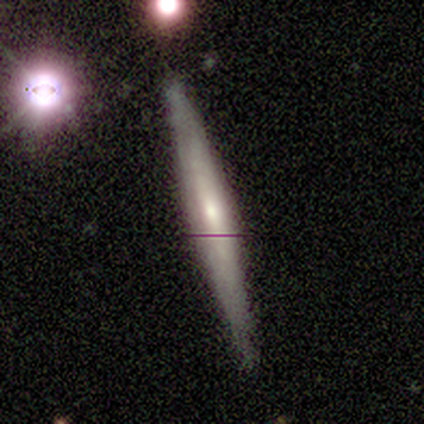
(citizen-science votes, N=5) Overall: featured or disk (60%; smooth 40%). Edge-on disk: yes (67%; no 33%). Edge-on bulge: none (50%, tied with rounded). Merging: none (100%).